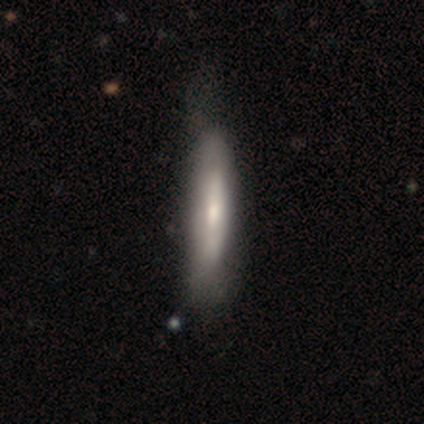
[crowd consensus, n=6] Smooth or featured: featured or disk — 67% (smooth — 33%)
Edge-on disk: yes — 75% (no — 25%)
Edge-on bulge: none — 67% (rounded — 33%)
Merging: minor disturbance — 67% (none — 33%)